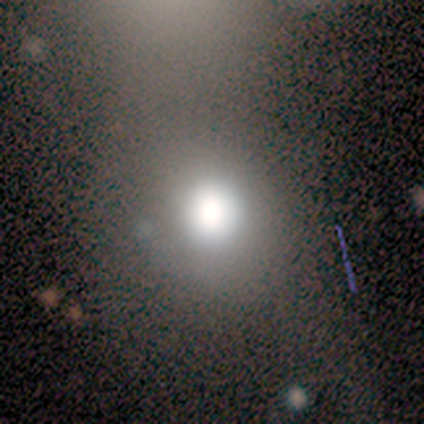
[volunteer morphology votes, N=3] smooth-or-featured: smooth: 100% | featured or disk: 0% | star or artifact: 0%
  how-rounded: round: 67% | in between: 33% | cigar-shaped: 0%
  merging: none: 33% (tied) | major disturbance: 33% (tied) | merger: 33% (tied) | minor disturbance: 0%